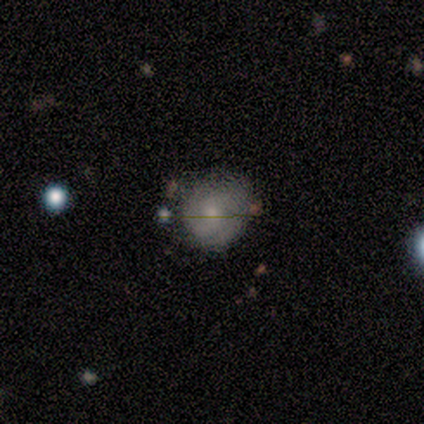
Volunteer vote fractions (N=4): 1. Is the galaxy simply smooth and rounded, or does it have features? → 75% featured or disk, 25% star or artifact, 0% smooth.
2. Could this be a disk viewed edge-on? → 100% no, 0% yes.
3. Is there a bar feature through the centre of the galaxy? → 67% no, 33% weak, 0% strong.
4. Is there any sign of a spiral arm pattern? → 67% no, 33% yes.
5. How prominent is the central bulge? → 67% small, 33% moderate, 0% dominant, 0% large, 0% none.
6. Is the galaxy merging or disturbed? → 67% none, 33% major disturbance, 0% minor disturbance, 0% merger.